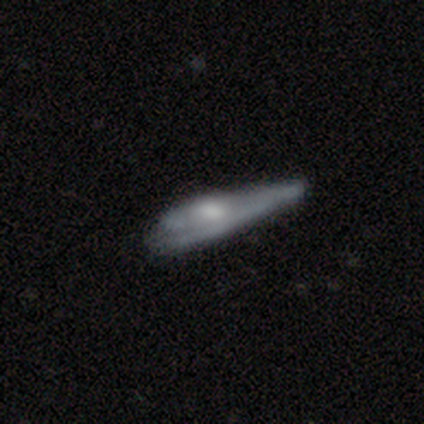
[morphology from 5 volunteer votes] A featured or disk galaxy (80%) viewed edge-on (50%, tied with no) with a boxy central bulge (50%, tied with rounded).

Vote fractions:
- Smooth or featured? featured or disk: 80% / smooth: 20% / star or artifact: 0%
- Edge-on disk? yes: 50% (tied) / no: 50% (tied)
- Edge-on bulge? boxy: 50% (tied) / rounded: 50% (tied) / none: 0%
- Merging? major disturbance: 60% / none: 20% / minor disturbance: 20% / merger: 0%